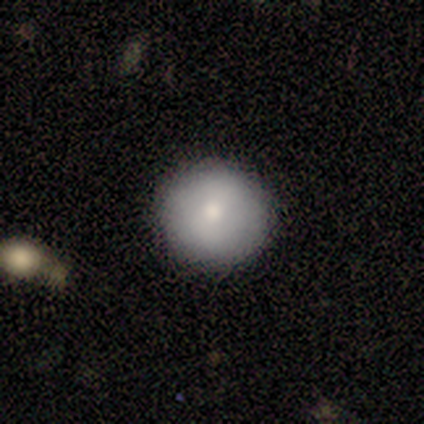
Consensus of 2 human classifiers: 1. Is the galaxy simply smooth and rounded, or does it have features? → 100% smooth, 0% featured or disk, 0% star or artifact.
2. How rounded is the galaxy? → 100% round, 0% in between, 0% cigar-shaped.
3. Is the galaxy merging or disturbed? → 100% none, 0% minor disturbance, 0% major disturbance, 0% merger.